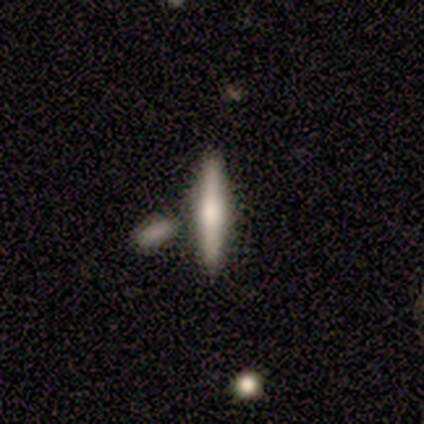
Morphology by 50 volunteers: Volunteers were most divided on "smooth or featured": featured or disk: 46%, smooth: 44%, star or artifact: 10%. More confident: edge-on disk — yes (100%); merging — none (78%); edge-on bulge — rounded (74%).